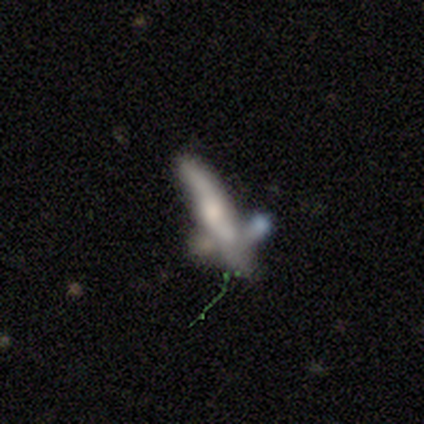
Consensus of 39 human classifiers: Smooth or featured?
  - featured or disk: 64% *
  - smooth: 28%
  - star or artifact: 8%
Edge-on disk?
  - yes: 64% *
  - no: 36%
Edge-on bulge?
  - rounded: 69% *
  - boxy: 19%
  - none: 12%
Merging?
  - merger: 50% *
  - none: 31%
  - minor disturbance: 11%
  - major disturbance: 8%